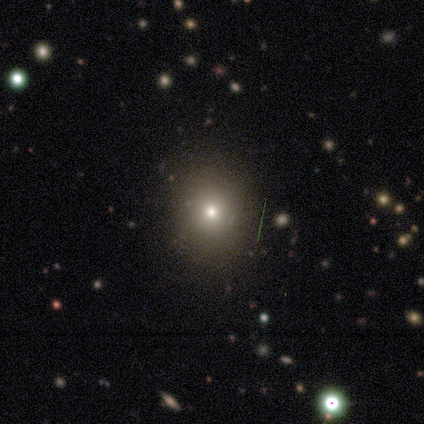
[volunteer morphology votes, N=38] smooth 71%, star or artifact 16%, featured or disk 13%. Down the decision tree: how rounded — round (85%); merging — none (88%).